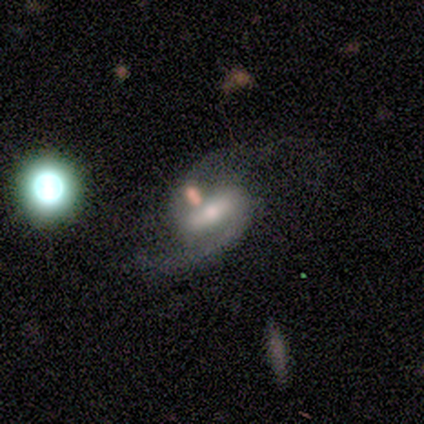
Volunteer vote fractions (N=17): Volunteers were most divided on "bulge size": moderate: 50%, small: 38%, large: 12%, dominant: 0%, none: 0%. More confident: edge-on disk — no (100%); spiral arms — yes (100%); smooth or featured — featured or disk (94%); spiral arm count — 2 (88%); bar — strong (69%); spiral winding — medium (56%); merging — none (56%).